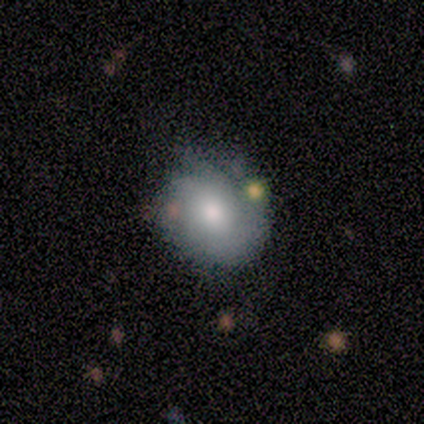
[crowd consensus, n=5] A featured or disk galaxy (60%) with no bar (67%), no spiral arms (67%) and a moderate central bulge (67%).

Vote fractions:
- Smooth or featured? featured or disk: 60% / smooth: 40% / star or artifact: 0%
- Edge-on disk? no: 100% / yes: 0%
- Bar? no: 67% / weak: 33% / strong: 0%
- Spiral arms? no: 67% / yes: 33%
- Bulge size? moderate: 67% / small: 33% / dominant: 0% / large: 0% / none: 0%
- Merging? none: 60% / minor disturbance: 20% / merger: 20% / major disturbance: 0%